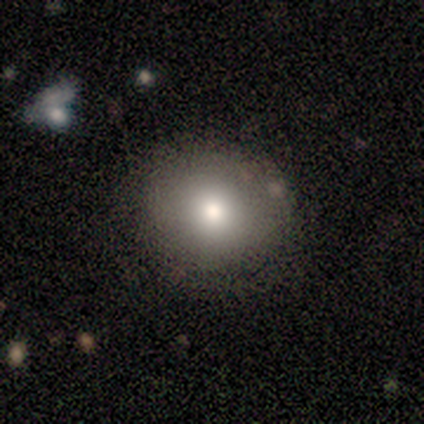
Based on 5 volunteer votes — This is likely a smooth galaxy (60%). How rounded: clearly round (100%). Merging: clearly none (100%).